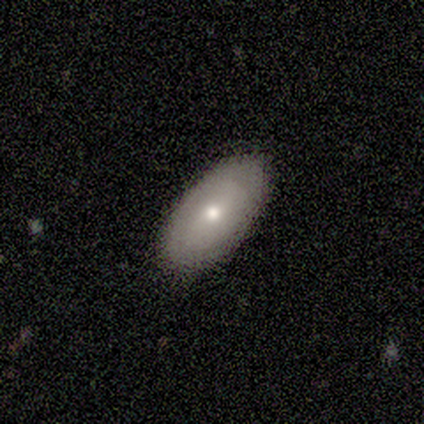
smooth-or-featured: featured or disk: 60% | smooth: 40% | star or artifact: 0%
  disk-edge-on: no: 67% | yes: 33%
    bar: no: 100% | strong: 0% | weak: 0%
    has-spiral-arms: yes: 50% (tied) | no: 50% (tied)
      spiral-winding: medium: 100% | tight: 0% | loose: 0%
      spiral-arm-count: 2: 100% | 1: 0% | 3: 0% | 4: 0% | more than 4: 0% | can't tell: 0%
    bulge-size: moderate: 50% (tied) | small: 50% (tied) | dominant: 0% | large: 0% | none: 0%
  merging: none: 80% | minor disturbance: 20% | major disturbance: 0% | merger: 0%